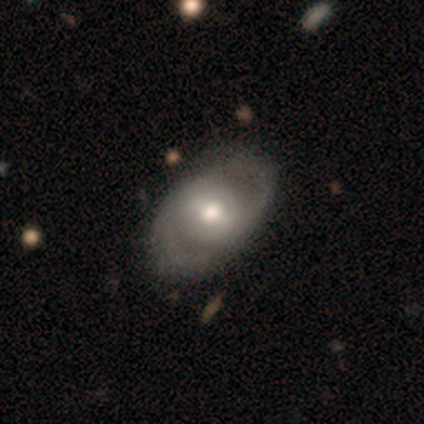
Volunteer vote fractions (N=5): Overall: featured or disk (100%). Edge-on disk: no (100%). Bar: weak (80%). Spiral arms: yes (100%). Spiral arm count: 2 (100%). Spiral winding: tight (60%; medium 40%). Bulge size: moderate (80%). Merging: none (80%).